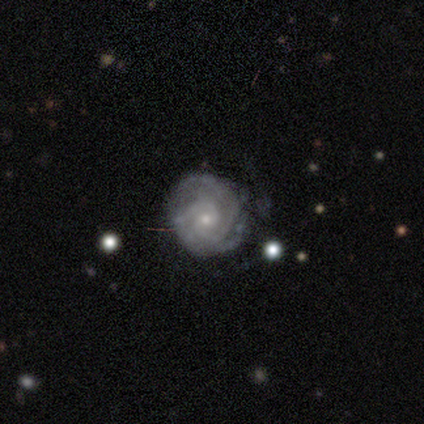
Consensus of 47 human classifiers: This appears to be a featured or disk galaxy (87%) with no bar (80%), 2 (62%) tight (82%) spiral arms (98%) and a small central bulge (68%). Merging: none (71%).